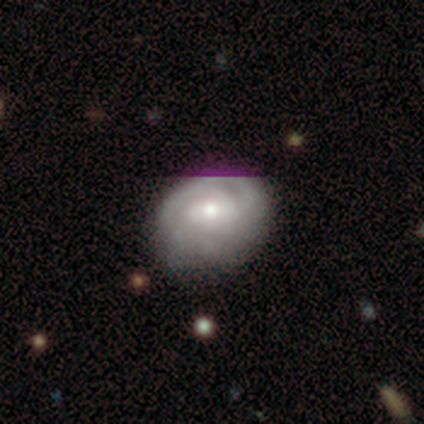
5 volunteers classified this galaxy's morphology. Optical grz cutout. It shows a smooth galaxy with no disk features (60%) that is round (100%). Merging: none (80%).